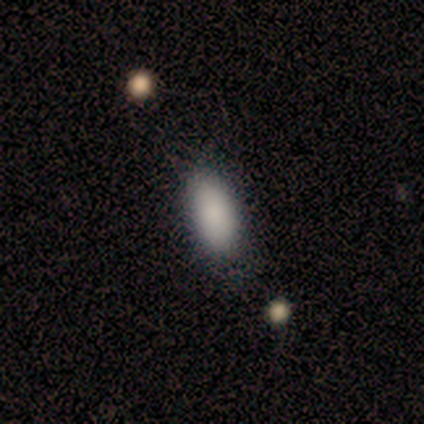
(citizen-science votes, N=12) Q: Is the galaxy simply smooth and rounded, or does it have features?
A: smooth — 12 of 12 (100%).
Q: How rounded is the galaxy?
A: in between — 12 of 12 (100%).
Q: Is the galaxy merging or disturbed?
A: none — 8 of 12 (67%).